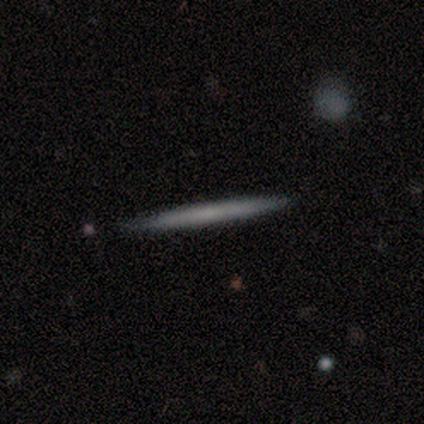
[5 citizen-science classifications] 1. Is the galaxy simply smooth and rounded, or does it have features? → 60% smooth, 20% featured or disk, 20% star or artifact.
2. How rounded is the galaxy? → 100% cigar-shaped, 0% round, 0% in between.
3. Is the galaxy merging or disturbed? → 75% none, 25% minor disturbance, 0% major disturbance, 0% merger.